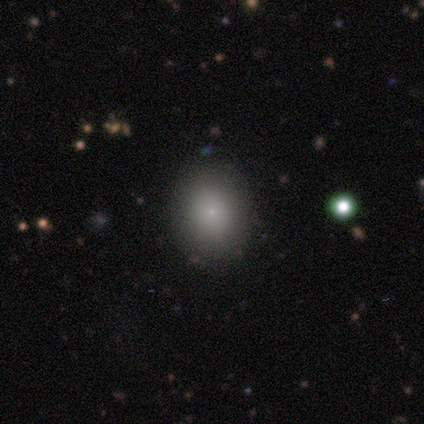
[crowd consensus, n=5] smooth_or_featured: smooth (p=1.00)
how_rounded: round (p=0.60) [alt: in between p=0.40]
merging: none (p=1.00)